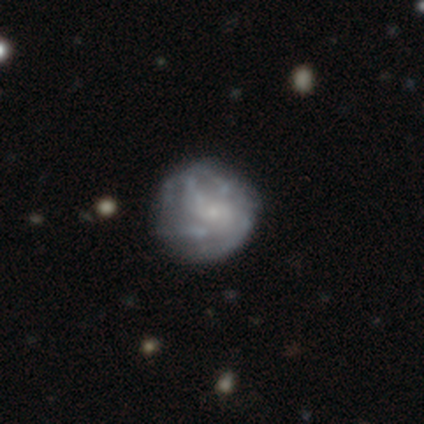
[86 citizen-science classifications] Q: Smooth or featured?
A: featured or disk (73%); runner-up: smooth (22%)
Q: Edge-on disk?
A: no (98%); runner-up: yes (2%)
Q: Bar?
A: no (82%); runner-up: weak (18%)
Q: Spiral arms?
A: yes (52%); runner-up: no (48%)
Q: Spiral winding?
A: medium (41%); runner-up: tight (38%)
Q: Spiral arm count?
A: can't tell (47%); runner-up: 3 (19%)
Q: Bulge size?
A: small (68%); runner-up: none (23%)
Q: Merging?
A: none (68%); runner-up: major disturbance (15%)